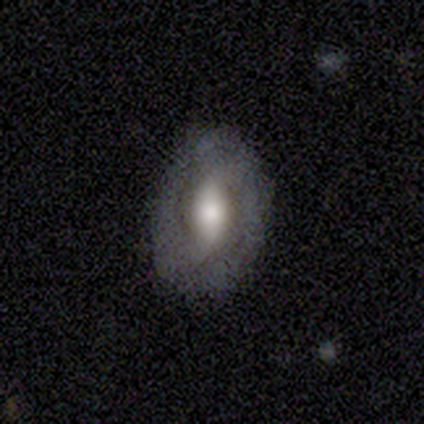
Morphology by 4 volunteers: Smooth or featured?
  - smooth: 50% * (tied)
  - featured or disk: 50% * (tied)
  - star or artifact: 0%
How rounded?
  - in between: 100% *
  - round: 0%
  - cigar-shaped: 0%
Merging?
  - none: 100% *
  - minor disturbance: 0%
  - major disturbance: 0%
  - merger: 0%